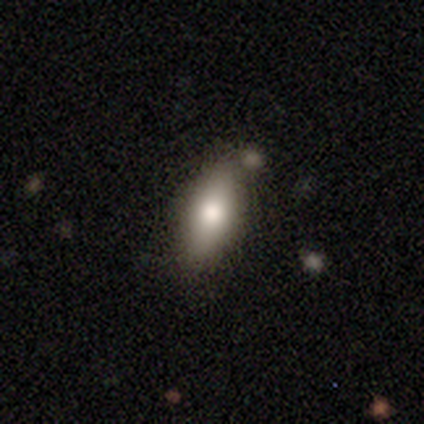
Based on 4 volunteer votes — Volunteers were most divided on "how rounded": in between: 75%, cigar-shaped: 25%, round: 0%. More confident: smooth or featured — smooth (100%); merging — none (75%).